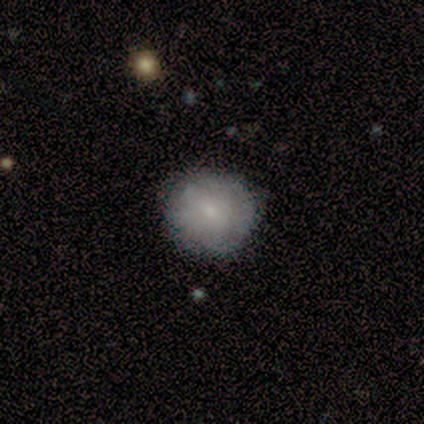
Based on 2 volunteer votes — smooth-or-featured: smooth: 50% (tied) | featured or disk: 50% (tied) | star or artifact: 0%
  how-rounded: round: 100% | in between: 0% | cigar-shaped: 0%
  merging: none: 50% (tied) | major disturbance: 50% (tied) | minor disturbance: 0% | merger: 0%